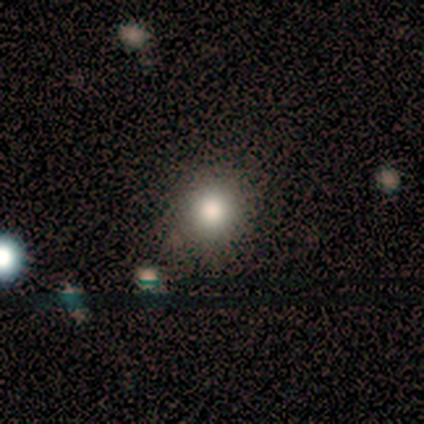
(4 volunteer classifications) Morphology: type=smooth (75%); roundness=round (100%); merging=none (67%).